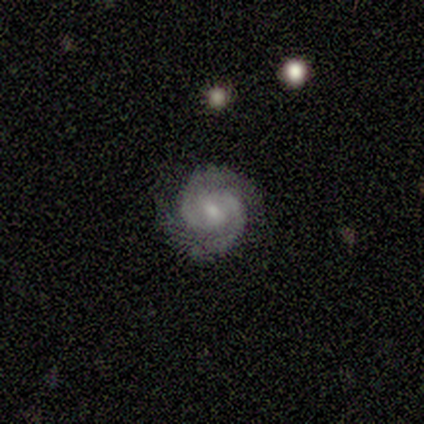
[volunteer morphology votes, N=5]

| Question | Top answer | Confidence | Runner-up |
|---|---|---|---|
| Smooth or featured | featured or disk | 80% | star or artifact (20%) |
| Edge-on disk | no | 100% | — |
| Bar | no | 75% | strong (25%) |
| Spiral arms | yes | 100% | — |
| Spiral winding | tight | 75% | medium (25%) |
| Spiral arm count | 2 | 100% | — |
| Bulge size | small | 75% | moderate (25%) |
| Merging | none | 75% | minor disturbance (25%) |